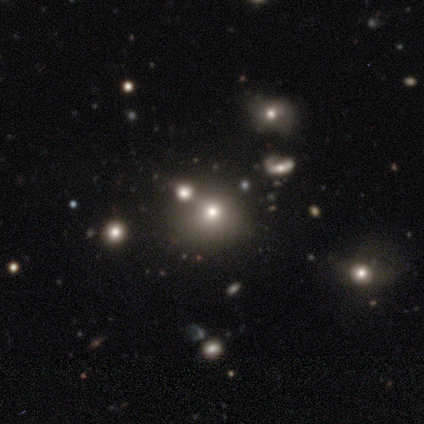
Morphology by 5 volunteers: Overall: smooth (80%). How rounded: round (100%). Merging: none (50%; major disturbance 25%).